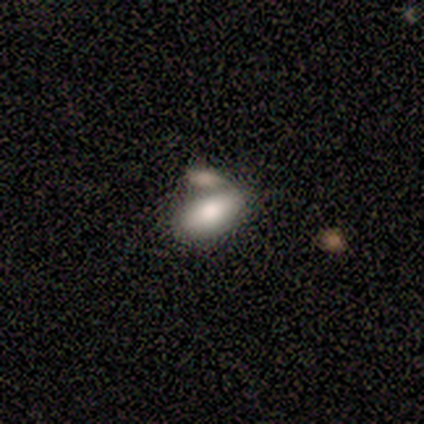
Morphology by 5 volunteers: Q: Smooth or featured?
A: smooth (100%)
Q: How rounded?
A: in between (80%); runner-up: cigar-shaped (20%)
Q: Merging?
A: none (40%); tied with: merger (40%)